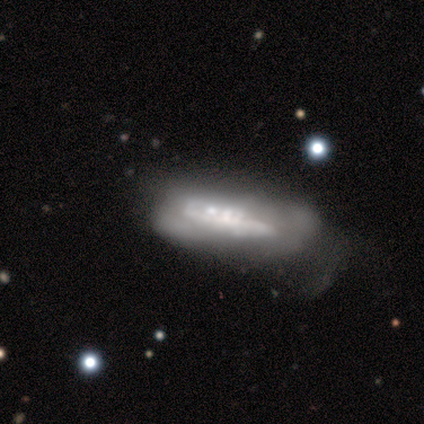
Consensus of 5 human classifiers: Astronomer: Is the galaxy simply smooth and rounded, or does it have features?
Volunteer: featured or disk — 80%.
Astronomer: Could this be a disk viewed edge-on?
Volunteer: no — 100%.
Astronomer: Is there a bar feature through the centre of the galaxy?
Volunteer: no — 100%.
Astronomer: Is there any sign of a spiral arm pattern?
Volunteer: yes — 50%, tied with no at 50%.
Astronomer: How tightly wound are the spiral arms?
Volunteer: medium — 50%, tied with loose at 50%.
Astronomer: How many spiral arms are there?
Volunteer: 2 — 50%, tied with can't tell at 50%.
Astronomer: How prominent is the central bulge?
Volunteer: none — 50%.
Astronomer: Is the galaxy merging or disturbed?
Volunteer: major disturbance — 40%, tied with merger at 40%.